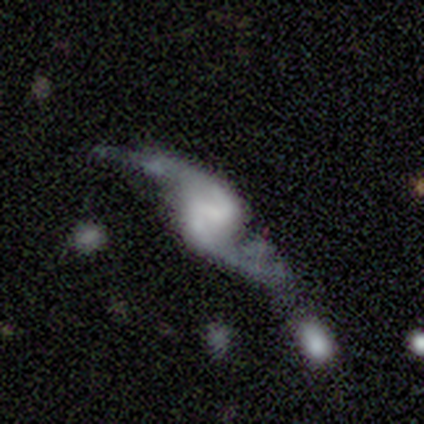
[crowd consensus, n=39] Smooth or featured: featured or disk — 95% (smooth — 3%)
Edge-on disk: no — 92% (yes — 8%)
Bar: weak — 44% (strong — 32%)
Spiral arms: yes — 94% (no — 6%)
Spiral winding: loose — 75% (medium — 25%)
Spiral arm count: 2 — 100%
Bulge size: none — 56% (small — 26%)
Merging: none — 55% (minor disturbance — 24%)